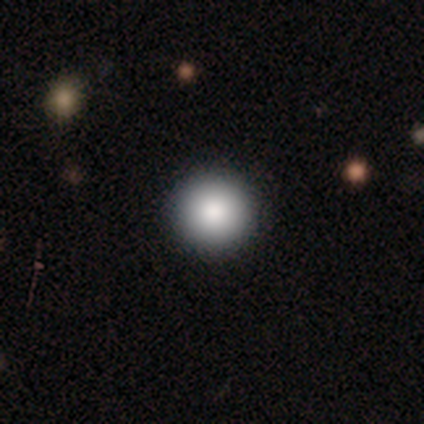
A smooth galaxy with no disk features (87%) that is round (97%). Merging: none (95%).